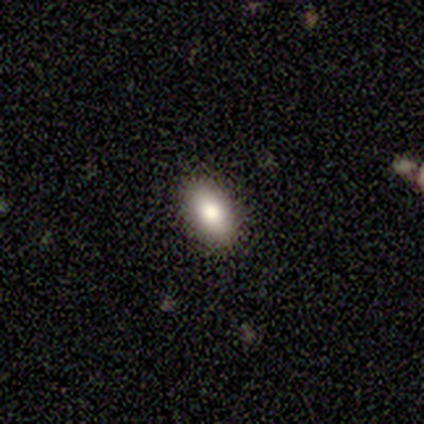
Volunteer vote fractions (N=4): smooth-or-featured: smooth: 100% | featured or disk: 0% | star or artifact: 0%
  how-rounded: in between: 75% | round: 25% | cigar-shaped: 0%
  merging: none: 100% | minor disturbance: 0% | major disturbance: 0% | merger: 0%